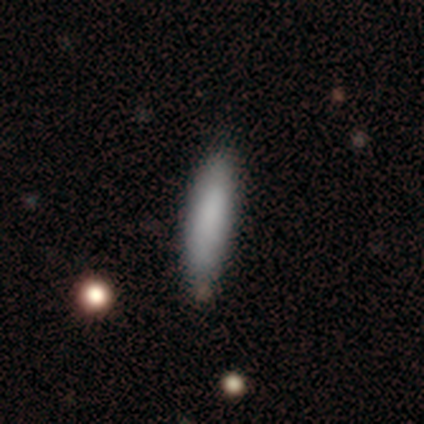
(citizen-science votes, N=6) This is clearly a smooth galaxy (83%). How rounded: clearly cigar-shaped (100%). Merging: clearly none (80%).